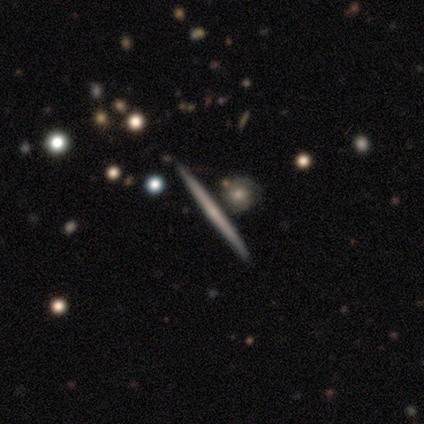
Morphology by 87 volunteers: Smooth or featured? 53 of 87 (61%) said featured or disk. Edge-on disk? 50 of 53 (94%) said yes. Edge-on bulge? 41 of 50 (82%) said none. Merging? 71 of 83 (86%) said none.